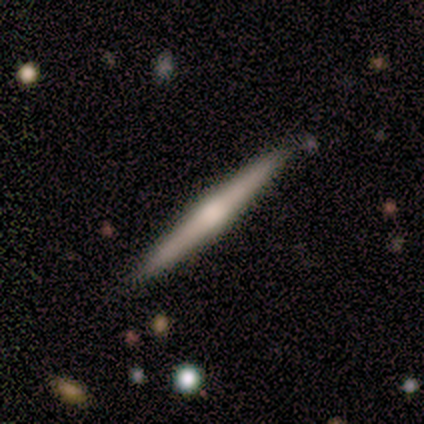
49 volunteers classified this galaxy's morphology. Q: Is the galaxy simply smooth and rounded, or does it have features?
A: featured or disk — 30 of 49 (61%).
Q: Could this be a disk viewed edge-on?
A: yes — 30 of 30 (100%).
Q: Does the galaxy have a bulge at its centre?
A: rounded — 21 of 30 (70%).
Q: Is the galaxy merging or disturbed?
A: none — 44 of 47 (94%).